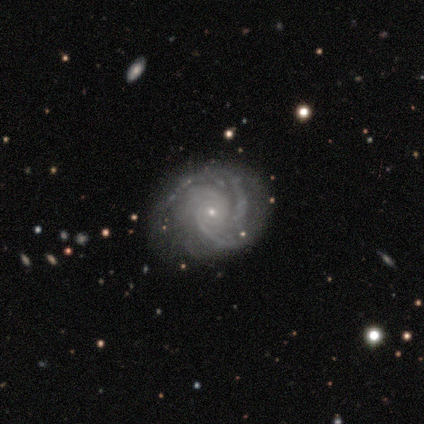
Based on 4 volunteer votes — A featured or disk galaxy (100%) with no bar (100%), 3 (50%, tied with 4) tight (75%) spiral arms (100%) and a moderate central bulge (50%, tied with small).

Vote fractions:
- Smooth or featured? featured or disk: 100% / smooth: 0% / star or artifact: 0%
- Edge-on disk? no: 100% / yes: 0%
- Bar? no: 100% / strong: 0% / weak: 0%
- Spiral arms? yes: 100% / no: 0%
- Spiral winding? tight: 75% / medium: 25% / loose: 0%
- Spiral arm count? 3: 50% (tied) / 4: 50% (tied) / 1: 0% / 2: 0% / more than 4: 0% / can't tell: 0%
- Bulge size? moderate: 50% (tied) / small: 50% (tied) / dominant: 0% / large: 0% / none: 0%
- Merging? none: 75% / minor disturbance: 25% / major disturbance: 0% / merger: 0%